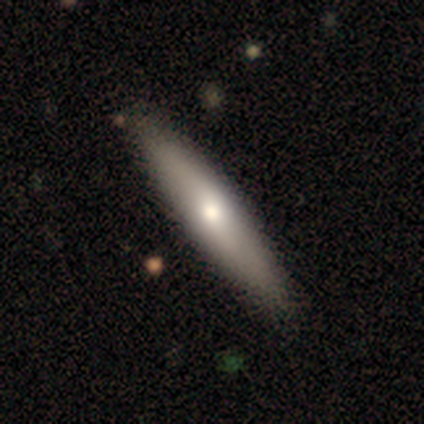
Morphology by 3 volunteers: Q: Smooth or featured?
A: smooth (33%); tied with: featured or disk (33%); star or artifact (33%)
Q: How rounded?
A: cigar-shaped (100%)
Q: Merging?
A: none (50%); tied with: minor disturbance (50%)